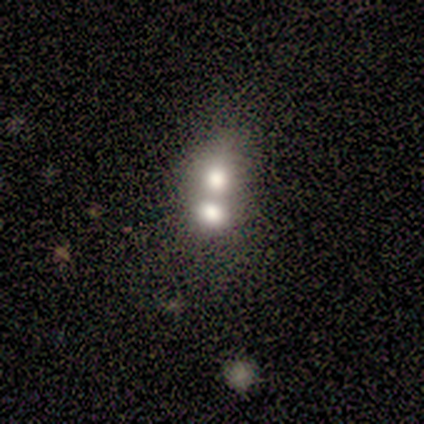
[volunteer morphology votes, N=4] Smooth or featured?
  - smooth: 100% *
  - featured or disk: 0%
  - star or artifact: 0%
How rounded?
  - round: 75% *
  - in between: 25%
  - cigar-shaped: 0%
Merging?
  - merger: 100% *
  - none: 0%
  - minor disturbance: 0%
  - major disturbance: 0%